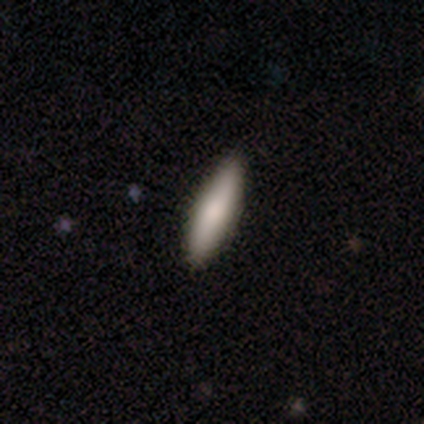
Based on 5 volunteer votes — Q: Smooth or featured?
A: smooth (100%)
Q: How rounded?
A: cigar-shaped (100%)
Q: Merging?
A: none (100%)